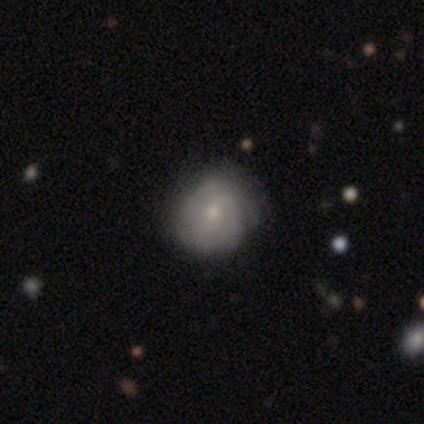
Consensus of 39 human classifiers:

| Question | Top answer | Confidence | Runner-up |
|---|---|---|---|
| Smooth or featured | featured or disk | 87% | smooth (10%) |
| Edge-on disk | no | 94% | yes (6%) |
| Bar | no | 59% | weak (31%) |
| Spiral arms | yes | 94% | no (6%) |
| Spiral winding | tight | 80% | medium (20%) |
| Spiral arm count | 2 | 60% | can't tell (20%) |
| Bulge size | small | 69% | moderate (25%) |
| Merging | none | 66% | minor disturbance (18%) |